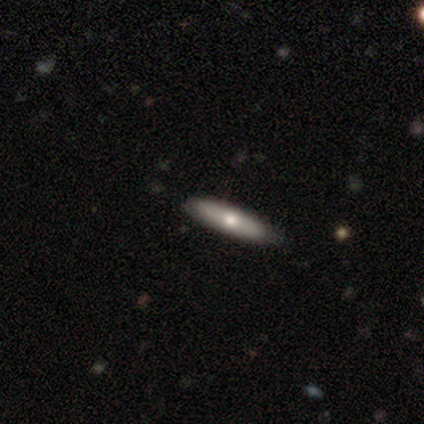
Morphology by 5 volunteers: Smooth or featured? 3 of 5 (60%) said featured or disk. Edge-on disk? 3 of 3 (100%) said yes. Edge-on bulge? 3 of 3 (100%) said rounded. Merging? 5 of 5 (100%) said none.